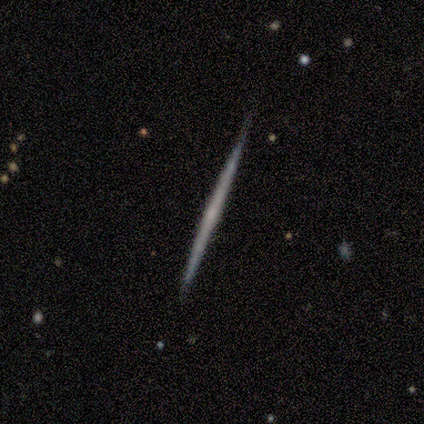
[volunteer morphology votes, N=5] This appears to be a featured or disk galaxy (60%) viewed edge-on (100%) with no central bulge (67%). Merging: none (100%).